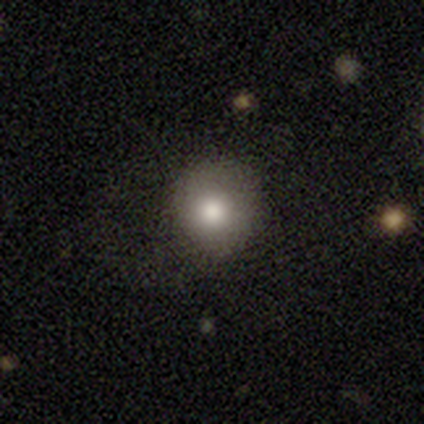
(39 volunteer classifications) Smooth or featured? smooth (77%)
How rounded? round (83%)
Merging? none (75%)